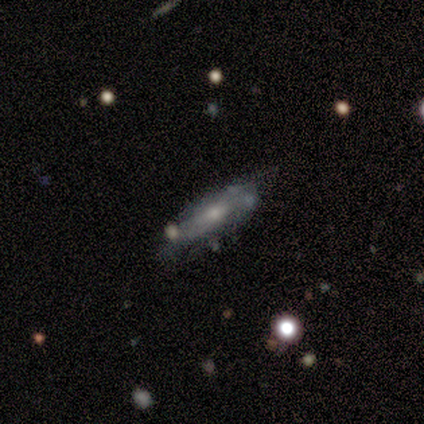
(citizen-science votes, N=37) Smooth or featured?
  - featured or disk: 65% *
  - smooth: 30%
  - star or artifact: 5%
Edge-on disk?
  - yes: 58% *
  - no: 42%
Edge-on bulge?
  - rounded: 71% *
  - none: 21%
  - boxy: 7%
Merging?
  - none: 60% *
  - minor disturbance: 23%
  - major disturbance: 11%
  - merger: 6%